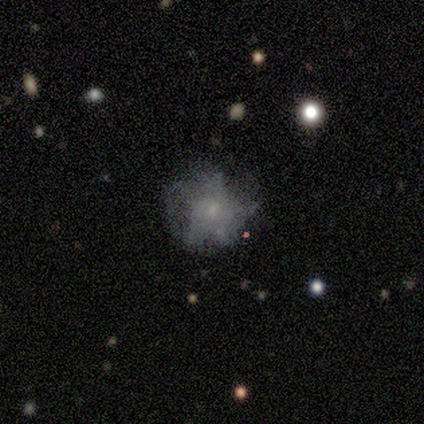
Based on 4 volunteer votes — smooth-or-featured: featured or disk: 50% | smooth: 25% | star or artifact: 25%
  disk-edge-on: no: 100% | yes: 0%
    bar: no: 100% | strong: 0% | weak: 0%
    has-spiral-arms: no: 100% | yes: 0%
    bulge-size: small: 100% | dominant: 0% | large: 0% | moderate: 0% | none: 0%
  merging: none: 67% | major disturbance: 33% | minor disturbance: 0% | merger: 0%